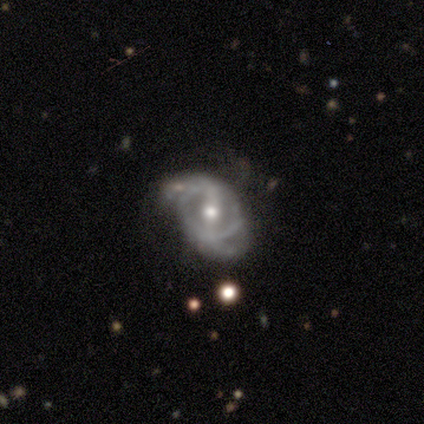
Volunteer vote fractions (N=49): Q: Smooth or featured?
A: featured or disk (90%); runner-up: smooth (6%)
Q: Edge-on disk?
A: no (100%)
Q: Bar?
A: strong (55%); runner-up: weak (39%)
Q: Spiral arms?
A: yes (89%); runner-up: no (11%)
Q: Spiral winding?
A: medium (46%); runner-up: loose (28%)
Q: Spiral arm count?
A: 2 (82%); runner-up: can't tell (10%)
Q: Bulge size?
A: moderate (70%); runner-up: small (18%)
Q: Merging?
A: none (45%); runner-up: minor disturbance (36%)